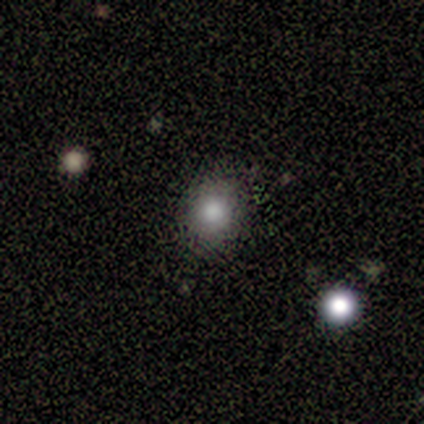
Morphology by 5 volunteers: This appears to be a smooth galaxy with no disk features (80%) that is round (75%). Merging: none (80%).